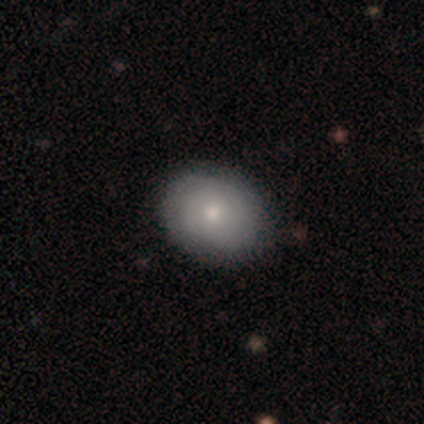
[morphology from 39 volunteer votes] smooth-or-featured: smooth: 72% | featured or disk: 28% | star or artifact: 0%
  how-rounded: in between: 68% | round: 32% | cigar-shaped: 0%
  merging: none: 62% | minor disturbance: 10% | major disturbance: 0% | merger: 0%